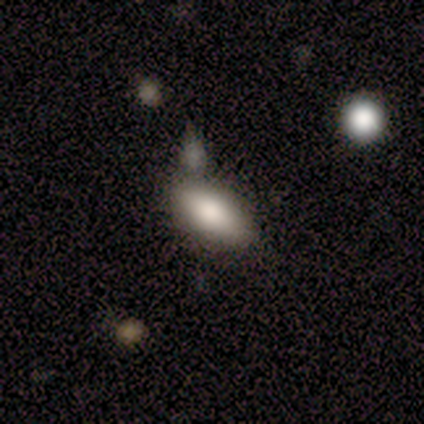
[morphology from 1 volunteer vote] smooth 100%, featured or disk 0%, star or artifact 0%. Down the decision tree: how rounded — in between (100%); merging — none (100%).